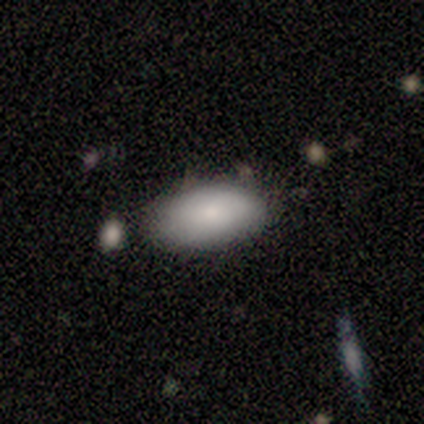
smooth 75%, star or artifact 25%, featured or disk 0%. Down the decision tree: how rounded — in between (100%); merging — none (67%).